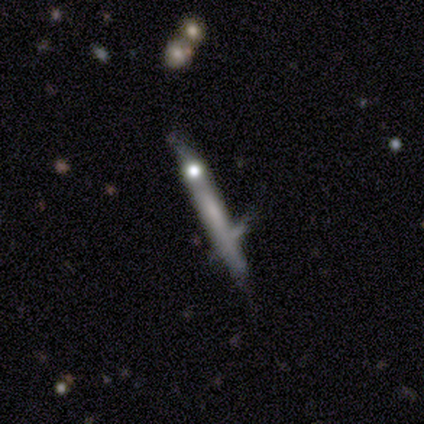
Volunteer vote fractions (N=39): Smooth or featured: featured or disk — 54% (smooth — 41%)
Edge-on disk: yes — 86% (no — 14%)
Edge-on bulge: none — 72% (rounded — 17%)
Merging: none — 51% (merger — 30%)